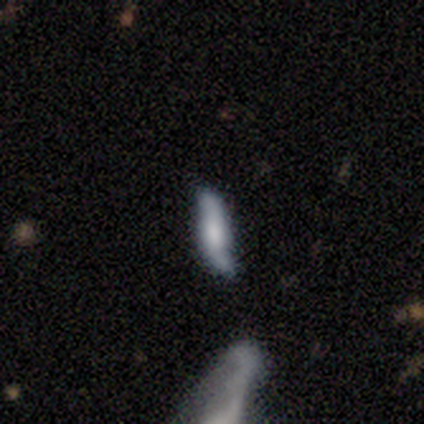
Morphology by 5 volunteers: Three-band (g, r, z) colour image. It shows a featured or disk galaxy (60%) viewed edge-on (67%) with a boxy central bulge (50%, tied with rounded). Merging: none (80%).